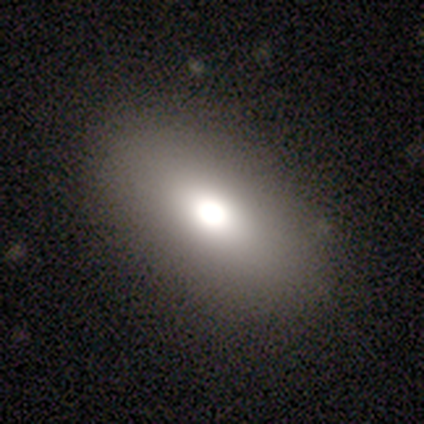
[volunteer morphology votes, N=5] A smooth galaxy with no disk features (100%) that is in between round and cigar-shaped (80%). Merging: none (80%).